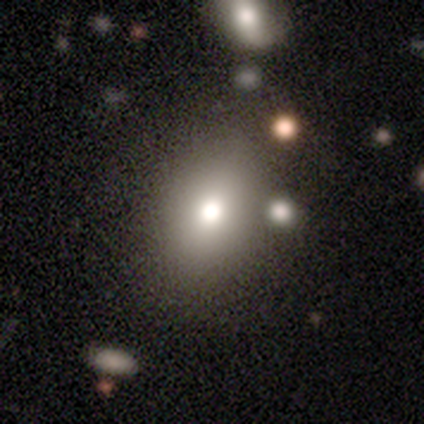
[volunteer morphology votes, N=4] This appears to be a smooth galaxy with no disk features (75%) that is in between round and cigar-shaped (100%). Merging: none (100%).